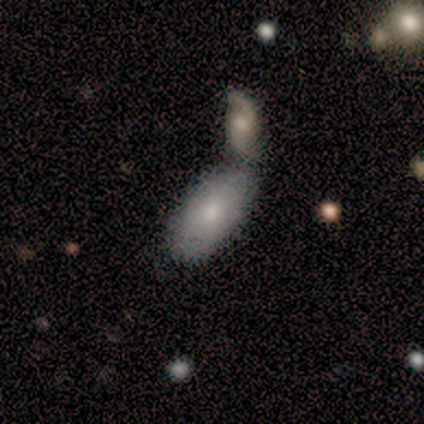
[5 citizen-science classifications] A smooth galaxy with no disk features (60%) that is in between round and cigar-shaped (100%).

Vote fractions:
- Smooth or featured? smooth: 60% / featured or disk: 40% / star or artifact: 0%
- How rounded? in between: 100% / round: 0% / cigar-shaped: 0%
- Merging? merger: 80% / none: 20% / minor disturbance: 0% / major disturbance: 0%